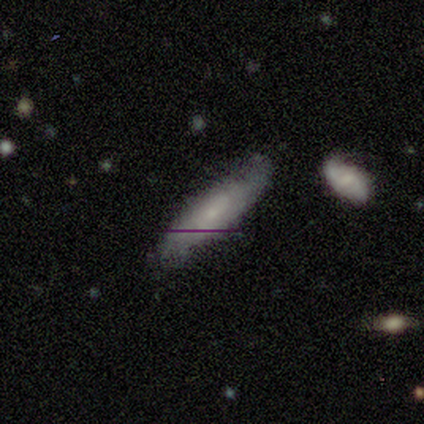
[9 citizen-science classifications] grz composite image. It shows a featured or disk galaxy (56%) with no bar (67%), no spiral arms (67%) and a small central bulge (67%). Merging: none (100%).